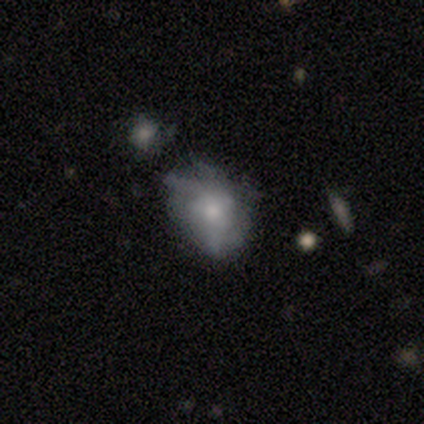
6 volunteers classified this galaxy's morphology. A featured or disk galaxy (67%) with no bar (75%), tight (50%, tied with loose) spiral arms (50%, tied with no) and a moderate central bulge (50%). Merging: minor disturbance (67%).